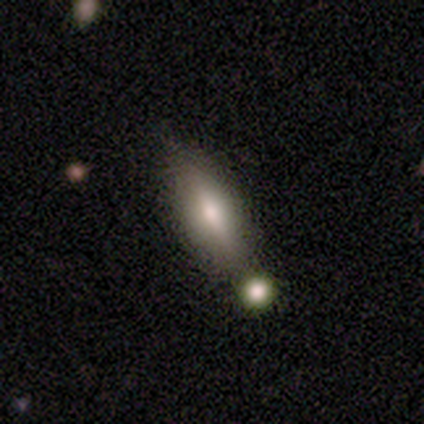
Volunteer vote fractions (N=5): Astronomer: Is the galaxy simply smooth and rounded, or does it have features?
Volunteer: smooth — 60%.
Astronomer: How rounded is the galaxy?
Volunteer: cigar-shaped — 100%.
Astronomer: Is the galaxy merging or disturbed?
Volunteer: minor disturbance — 75%.